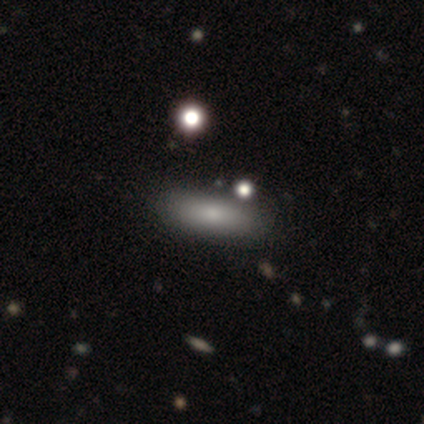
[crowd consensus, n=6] Morphology: type=smooth (67%); roundness=in between (50%, tied with cigar-shaped); merging=none (100%).